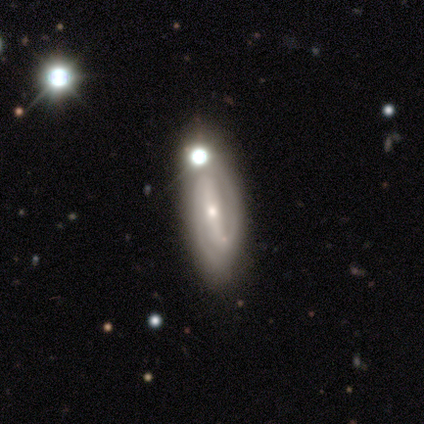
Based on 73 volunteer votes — A featured or disk galaxy (88%) with a strong bar (69%), 2 (96%) tight (49%) spiral arms (95%) and a small central bulge (67%). Merging: none (42%).